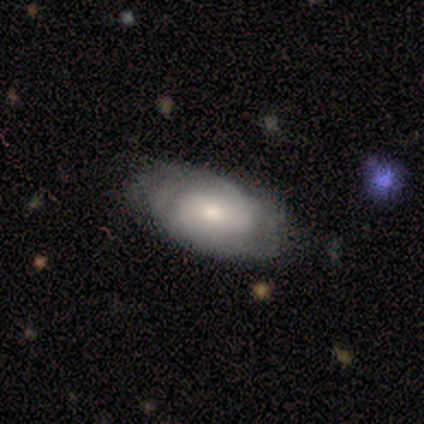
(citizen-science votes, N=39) A featured or disk galaxy (62%) with no bar (59%), tight (56%) spiral arms (73%) and a small central bulge (55%). Merging: none (68%).